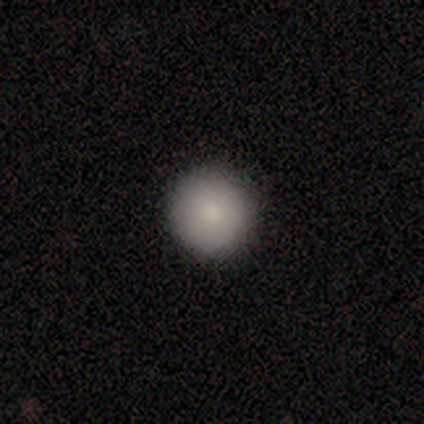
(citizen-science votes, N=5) Consensus on every question: smooth or featured — smooth (100%); how rounded — round (100%); merging — none (100%).